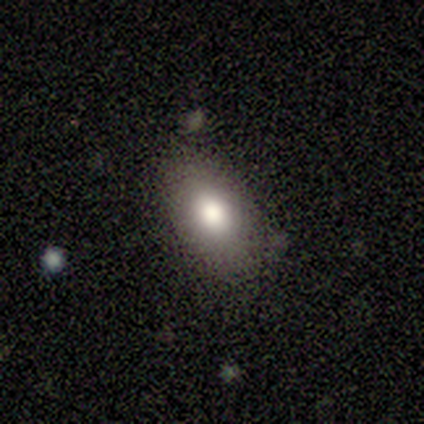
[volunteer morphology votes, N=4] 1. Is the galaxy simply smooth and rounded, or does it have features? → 75% smooth, 25% star or artifact, 0% featured or disk.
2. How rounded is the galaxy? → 100% in between, 0% round, 0% cigar-shaped.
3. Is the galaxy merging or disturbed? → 67% none, 33% minor disturbance, 0% major disturbance, 0% merger.